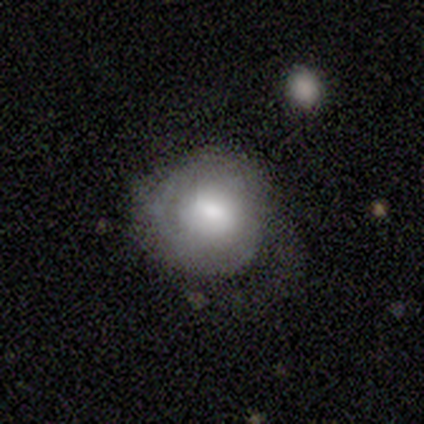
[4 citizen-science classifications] A featured or disk galaxy (50%) with no bar (100%), no spiral arms (100%) and a moderate central bulge (50%, tied with none). Merging: none (33%, tied with minor disturbance and major disturbance).